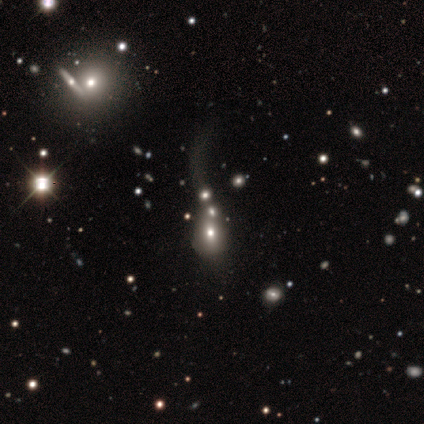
Smooth or featured: star or artifact — 44% (smooth — 38%)